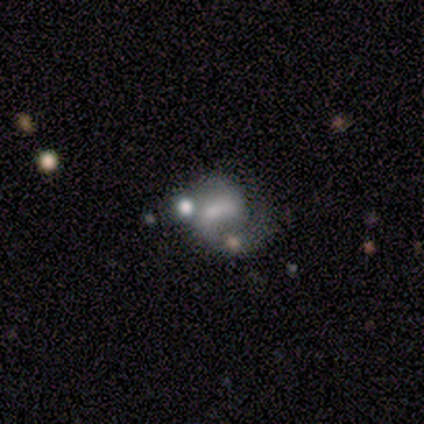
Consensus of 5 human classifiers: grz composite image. It shows a smooth galaxy with no disk features (60%) that is in between round and cigar-shaped (67%). Merging: none (60%).